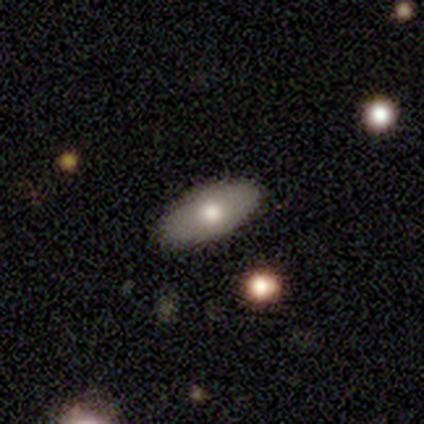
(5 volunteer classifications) smooth_or_featured: smooth (p=0.60) [alt: featured or disk p=0.40]
how_rounded: in between (p=0.67) [alt: cigar-shaped p=0.33]
merging: none (p=1.00)